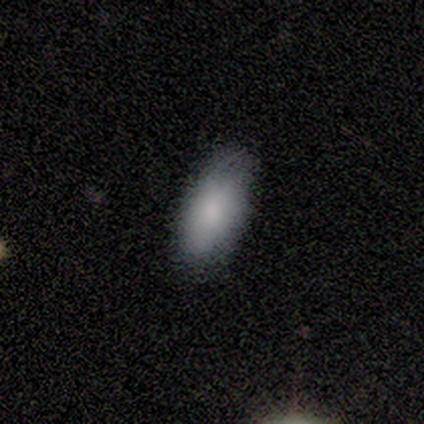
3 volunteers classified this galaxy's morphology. smooth 100%, featured or disk 0%, star or artifact 0%. Down the decision tree: how rounded — in between (67%); merging — none (100%).